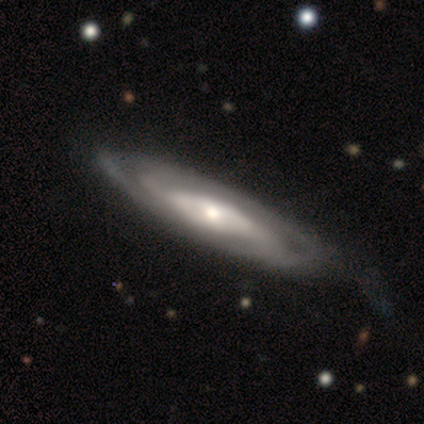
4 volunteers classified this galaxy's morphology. This is clearly a featured or disk galaxy (100%). It is clearly not viewed edge-on (100%). Bar: clearly no (100%). Spiral arm pattern: clearly yes (100%). Spiral arm count: possibly can't tell (50%). Spiral winding: possibly tight (50%). Central bulge: likely small (75%). Merging: likely none (75%).